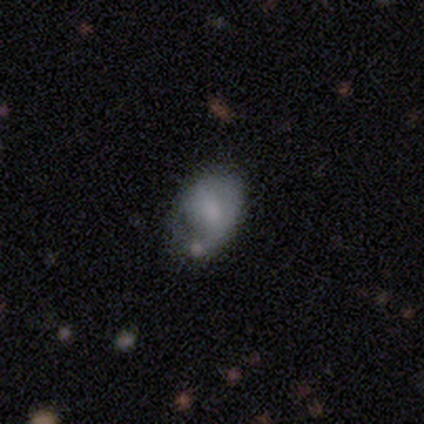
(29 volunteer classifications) A smooth galaxy with no disk features (52%) that is in between round and cigar-shaped (80%). Merging: none (43%).